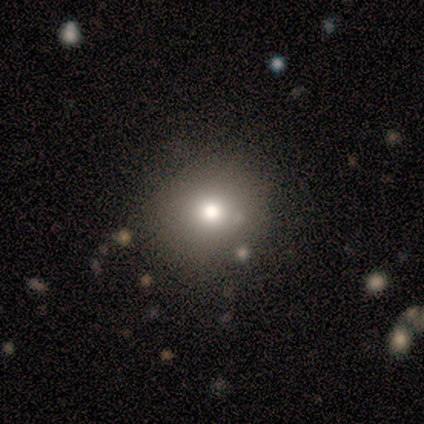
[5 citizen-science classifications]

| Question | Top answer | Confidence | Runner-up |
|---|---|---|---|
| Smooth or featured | smooth | 60% | featured or disk (40%) |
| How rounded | round | 100% | — |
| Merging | none | 100% | — |